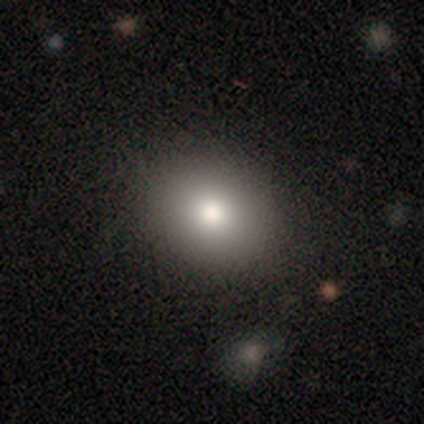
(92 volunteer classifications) Q: Smooth or featured?
A: smooth (78%); runner-up: featured or disk (13%)
Q: How rounded?
A: round (53%); runner-up: in between (46%)
Q: Merging?
A: none (87%); runner-up: minor disturbance (6%)